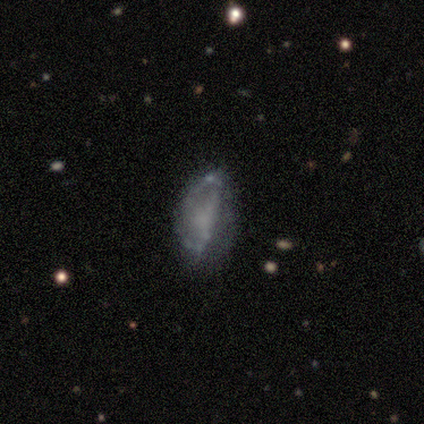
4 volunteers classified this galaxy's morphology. type=featured or disk (50%); edge-on=no (100%); bar=weak (50%, tied with no); spiral arms=yes (50%, tied with no); winding=medium (100%); arm count=2 (100%); bulge=none (100%); merging=none (33%, tied with minor disturbance and major disturbance).